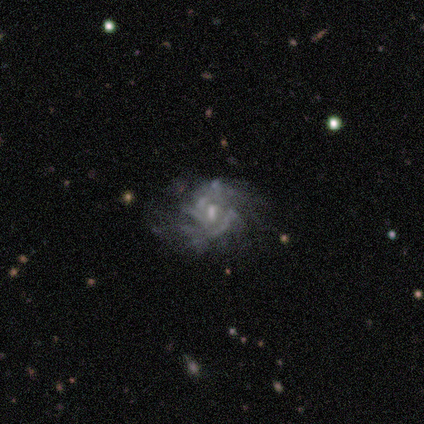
Morphology: type=featured or disk (100%); edge-on=no (100%); bar=weak (80%); spiral arms=yes (100%); winding=tight (80%); arm count=can't tell (40%); bulge=small (60%); merging=none (100%).